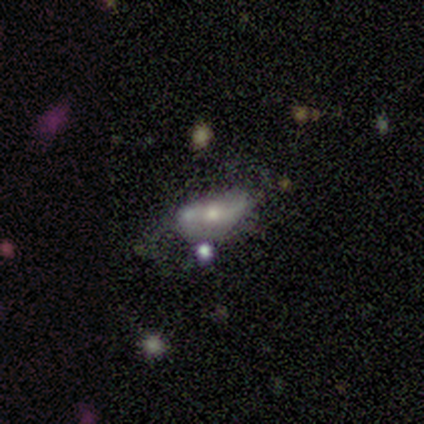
Smooth or featured? featured or disk (67%)
Edge-on disk? no (100%)
Bar? weak (50%, tied with no)
Spiral arms? yes (50%, tied with no)
Spiral winding? loose (100%)
Spiral arm count? 2 (100%)
Bulge size? moderate (50%, tied with small)
Merging? minor disturbance (67%)